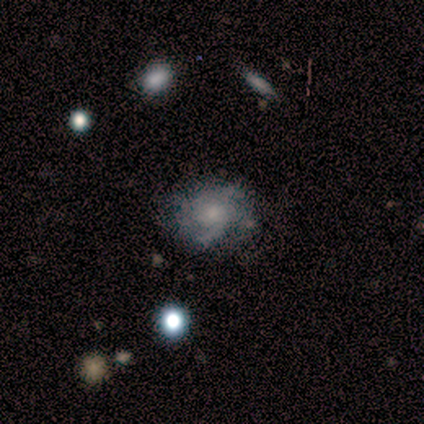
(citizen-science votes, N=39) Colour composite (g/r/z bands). It shows a featured or disk galaxy (64%) with no bar (75%), 2 (38%) tight (46%) spiral arms (100%) and a small central bulge (54%). Merging: none (51%).